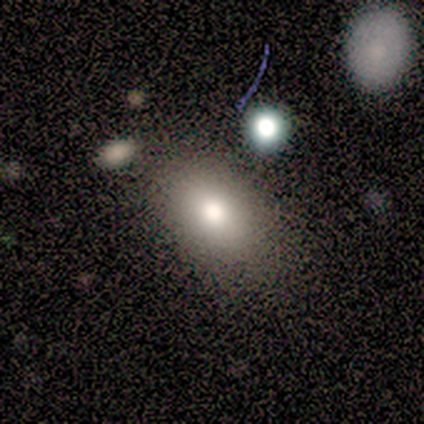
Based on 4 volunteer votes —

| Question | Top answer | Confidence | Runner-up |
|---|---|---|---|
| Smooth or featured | smooth | 75% | featured or disk (25%) |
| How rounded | in between | 100% | — |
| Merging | none | 50% | tied: minor disturbance (50%) |